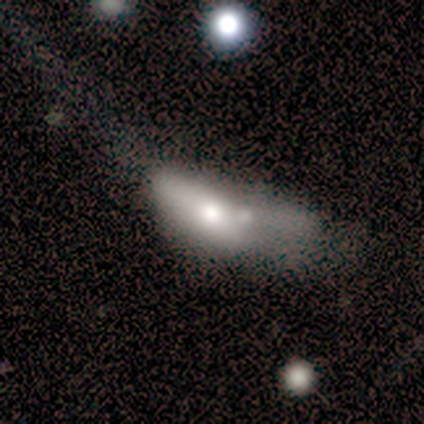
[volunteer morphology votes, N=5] Q: Smooth or featured?
A: smooth (60%); runner-up: featured or disk (40%)
Q: How rounded?
A: in between (67%); runner-up: cigar-shaped (33%)
Q: Merging?
A: major disturbance (40%); tied with: merger (40%)